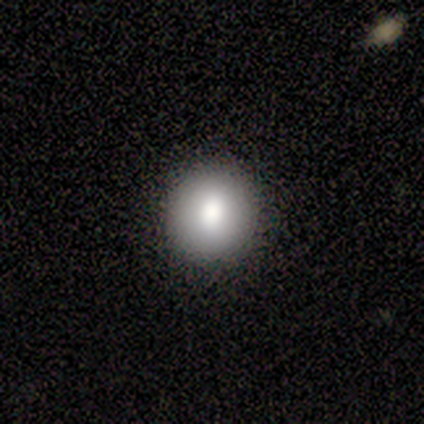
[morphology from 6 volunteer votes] type=smooth (83%); roundness=round (100%); merging=none (100%).